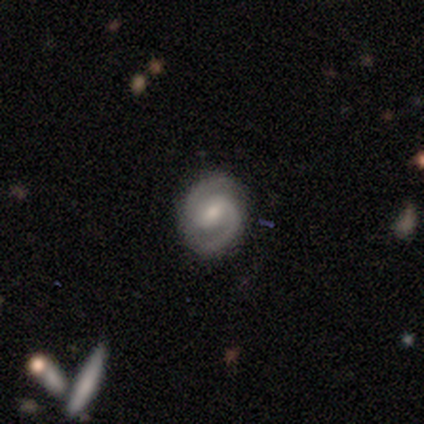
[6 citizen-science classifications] Smooth or featured: featured or disk — 100%
Edge-on disk: no — 100%
Bar: no — 50% (weak — 33%)
Spiral arms: yes — 100%
Spiral winding: medium — 83% (tight — 17%)
Spiral arm count: 2 — 100%
Bulge size: moderate — 67% (small — 33%)
Merging: none — 100%